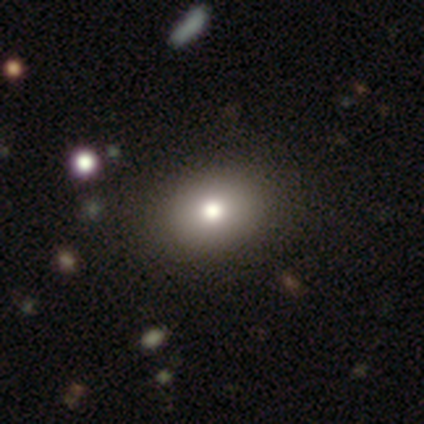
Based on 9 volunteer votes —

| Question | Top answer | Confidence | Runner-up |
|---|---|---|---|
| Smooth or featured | smooth | 56% | featured or disk (22%) |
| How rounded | in between | 80% | round (20%) |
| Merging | none | 100% | — |